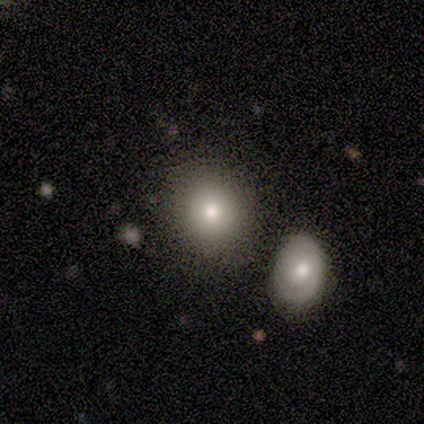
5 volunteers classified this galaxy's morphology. Smooth or featured? star or artifact (60%)